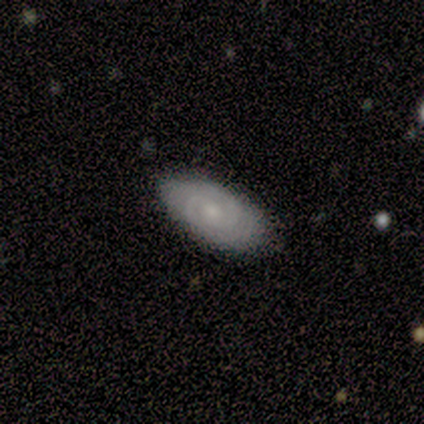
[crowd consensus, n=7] Smooth or featured?
  - featured or disk: 100% *
  - smooth: 0%
  - star or artifact: 0%
Edge-on disk?
  - no: 100% *
  - yes: 0%
Bar?
  - no: 71% *
  - weak: 29%
  - strong: 0%
Spiral arms?
  - yes: 86% *
  - no: 14%
Spiral winding?
  - tight: 67% *
  - medium: 33%
  - loose: 0%
Spiral arm count?
  - 2: 67% *
  - 4: 17%
  - more than 4: 17%
  - 1: 0%
  - 3: 0%
  - can't tell: 0%
Bulge size?
  - moderate: 43% * (tied)
  - small: 43% * (tied)
  - dominant: 14%
  - large: 0%
  - none: 0%
Merging?
  - none: 86% *
  - minor disturbance: 14%
  - major disturbance: 0%
  - merger: 0%